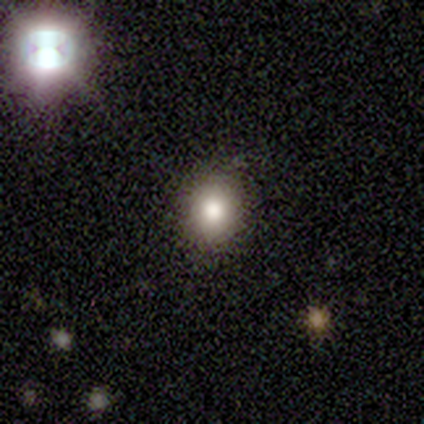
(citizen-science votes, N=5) Morphology: type=smooth (80%); roundness=round (50%, tied with in between); merging=none (100%).